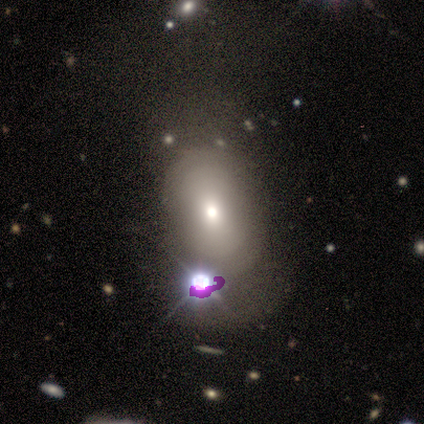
Q: Smooth or featured?
A: smooth (45%); runner-up: featured or disk (36%)
Q: How rounded?
A: in between (80%); runner-up: round (20%)
Q: Merging?
A: none (44%); runner-up: minor disturbance (33%)